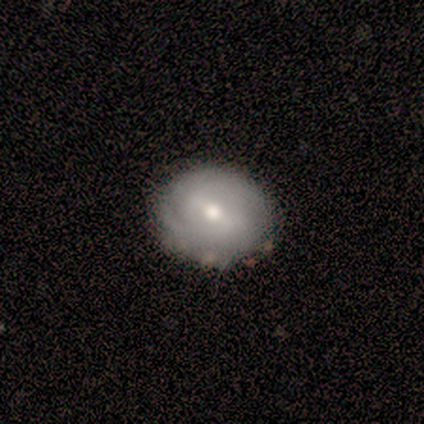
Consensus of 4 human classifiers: smooth_or_featured: smooth (p=0.50) [tied with: featured or disk p=0.50]
how_rounded: round (p=1.00)
merging: none (p=0.75) [alt: major disturbance p=0.25]